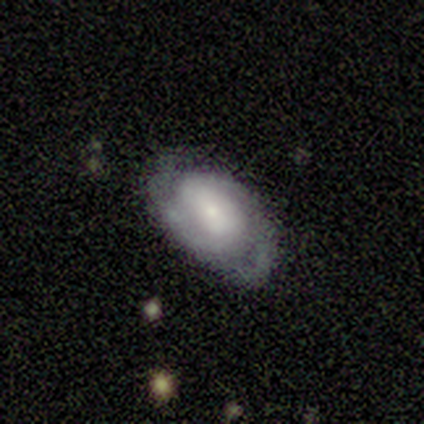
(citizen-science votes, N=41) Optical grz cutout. It shows a featured or disk galaxy (76%) with no bar (47%), 2 (62%) tight (54%) spiral arms (80%) and a small central bulge (43%). Merging: none (66%).